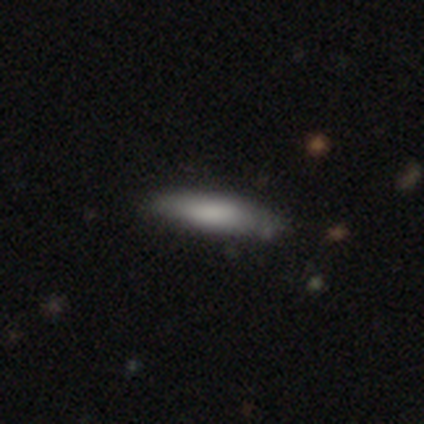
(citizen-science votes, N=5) A smooth galaxy with no disk features (80%) that is cigar-shaped (75%). Merging: none (60%).